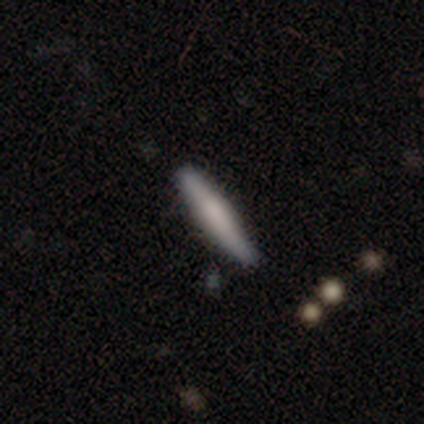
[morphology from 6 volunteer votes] type=featured or disk (67%); edge-on=yes (100%); edge-on bulge=boxy (75%); merging=none (80%).